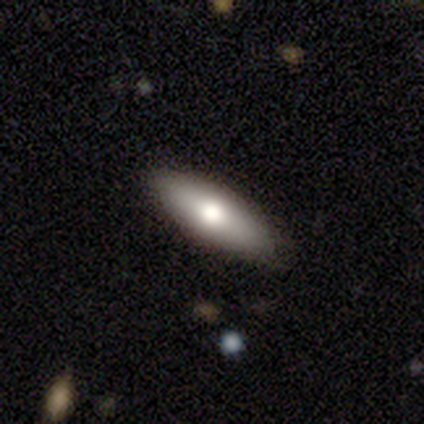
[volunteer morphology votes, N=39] This is likely a smooth galaxy (72%). How rounded: possibly cigar-shaped (50%). Merging: clearly none (83%).